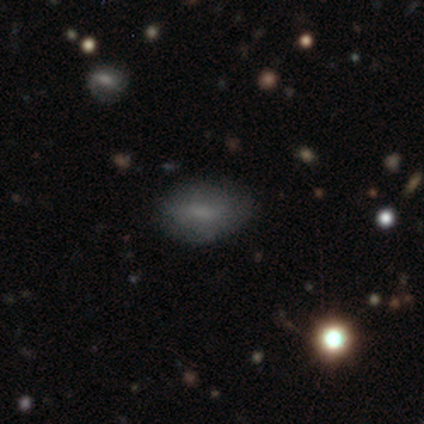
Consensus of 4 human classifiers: Overall: smooth (100%). How rounded: round (50%, tied with in between). Merging: none (100%).